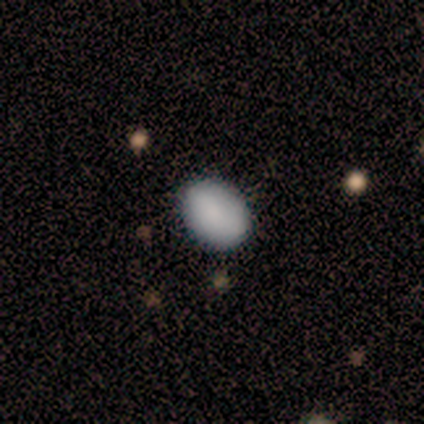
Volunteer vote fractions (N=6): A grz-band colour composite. It shows a smooth galaxy with no disk features (83%) that is in between round and cigar-shaped (80%). Merging: none (100%).